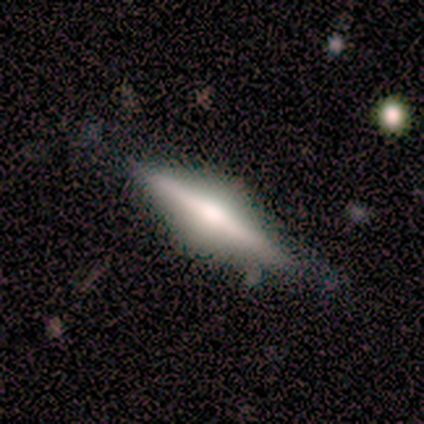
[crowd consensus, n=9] Overall: featured or disk (78%). Edge-on disk: yes (100%). Edge-on bulge: rounded (86%). Merging: none (88%).